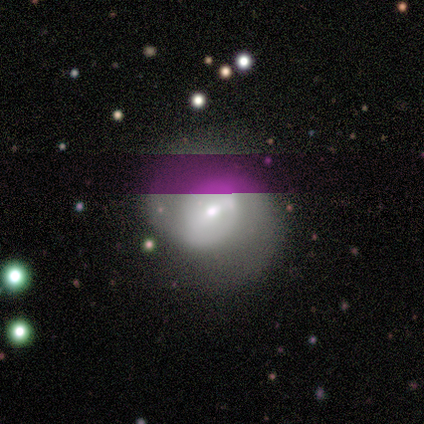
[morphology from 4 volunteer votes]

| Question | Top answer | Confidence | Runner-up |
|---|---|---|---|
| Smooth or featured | featured or disk | 100% | — |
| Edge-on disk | no | 100% | — |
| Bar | weak | 50% | tied: no (50%) |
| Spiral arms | yes | 75% | no (25%) |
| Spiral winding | tight | 67% | loose (33%) |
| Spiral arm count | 2 | 100% | — |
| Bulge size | small | 100% | — |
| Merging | none | 75% | minor disturbance (25%) |